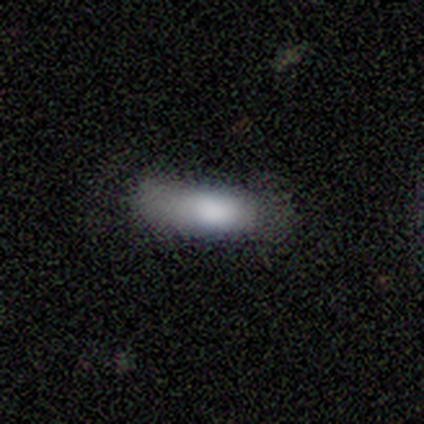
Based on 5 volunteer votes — smooth 80%, star or artifact 20%, featured or disk 0%. Down the decision tree: how rounded — in between (50%, tied with cigar-shaped); merging — none (100%).